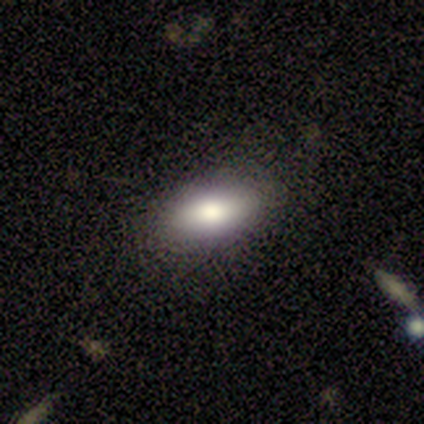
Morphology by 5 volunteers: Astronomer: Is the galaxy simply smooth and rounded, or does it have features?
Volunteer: smooth — 80%.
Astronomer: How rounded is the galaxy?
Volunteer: in between — 75%.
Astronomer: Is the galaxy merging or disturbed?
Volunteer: none — 75%.